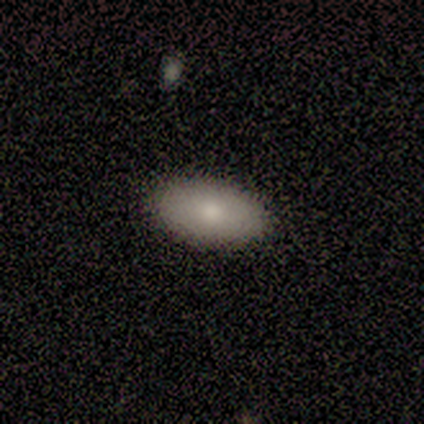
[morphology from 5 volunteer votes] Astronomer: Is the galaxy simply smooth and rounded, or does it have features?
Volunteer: smooth — 80%.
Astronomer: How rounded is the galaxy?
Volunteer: in between — 100%.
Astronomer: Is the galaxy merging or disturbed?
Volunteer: none — 100%.